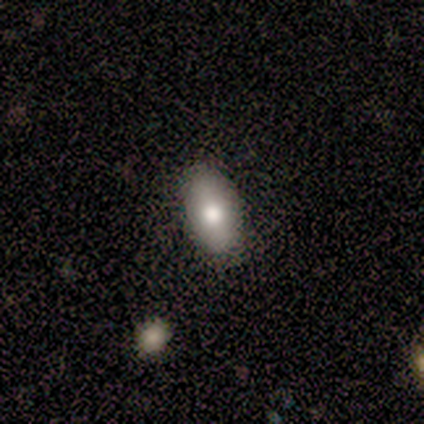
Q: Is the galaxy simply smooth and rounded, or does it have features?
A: smooth — 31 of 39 (79%).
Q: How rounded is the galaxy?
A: in between — 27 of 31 (87%).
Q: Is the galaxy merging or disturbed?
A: none — 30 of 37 (81%).